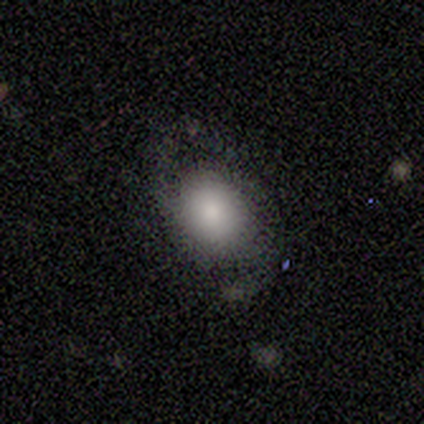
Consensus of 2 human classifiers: Smooth or featured? smooth (100%)
How rounded? round (50%, tied with in between)
Merging? none (100%)